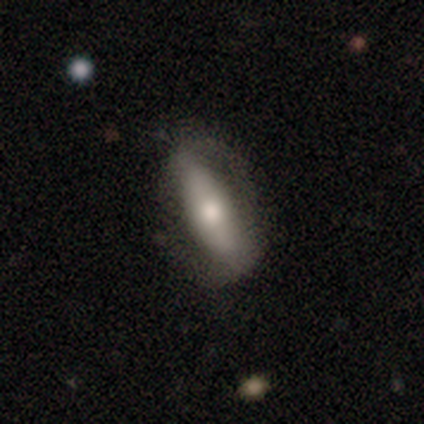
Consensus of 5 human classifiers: A smooth galaxy with no disk features (60%) that is cigar-shaped (67%). Merging: none (80%).